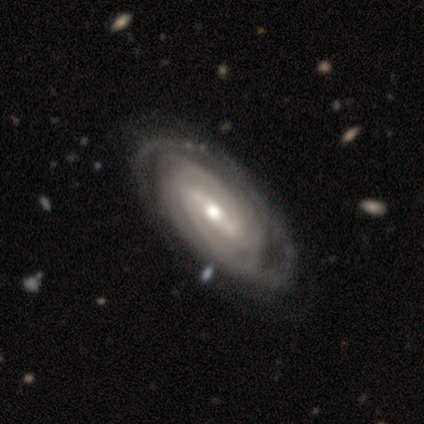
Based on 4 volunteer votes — Overall: featured or disk (75%). Edge-on disk: no (100%). Bar: weak (67%; strong 33%). Spiral arms: yes (67%; no 33%). Spiral arm count: 2 (50%, tied with can't tell). Spiral winding: tight (50%, tied with medium). Bulge size: moderate (100%). Merging: none (100%).